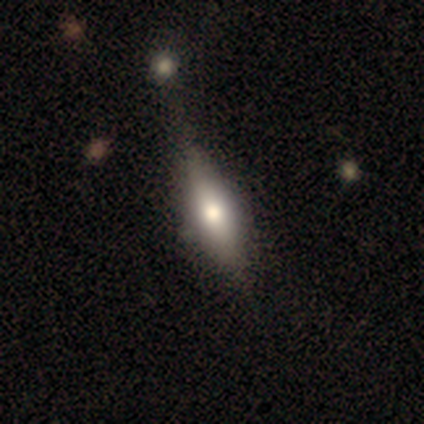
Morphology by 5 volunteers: featured or disk 60%, smooth 40%, star or artifact 0%. Down the decision tree: edge-on disk — yes (100%); edge-on bulge — rounded (67%); merging — none (80%).